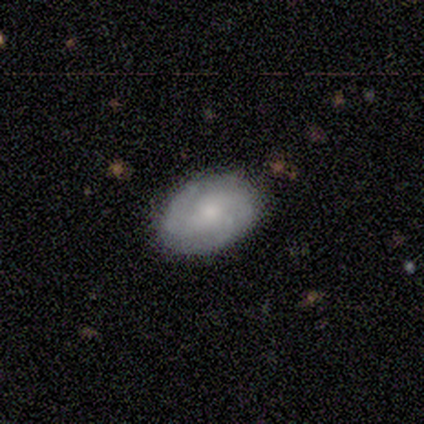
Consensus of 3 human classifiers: Smooth or featured? 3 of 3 (100%) said featured or disk. Edge-on disk? 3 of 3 (100%) said no. Bar? 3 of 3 (100%) said weak. Spiral arms? 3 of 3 (100%) said yes. Spiral winding? 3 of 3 (100%) said medium. Spiral arm count? 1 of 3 (33%, tied with 3 and can't tell) said 2. Bulge size? 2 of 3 (67%) said small. Merging? 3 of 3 (100%) said none.